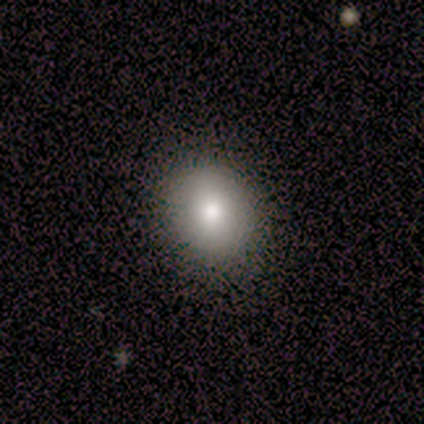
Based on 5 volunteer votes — smooth-or-featured: smooth: 80% | star or artifact: 20% | featured or disk: 0%
  how-rounded: in between: 75% | round: 25% | cigar-shaped: 0%
  merging: none: 100% | minor disturbance: 0% | major disturbance: 0% | merger: 0%